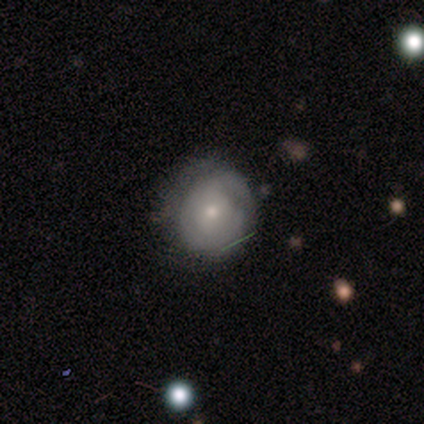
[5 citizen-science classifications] Morphology: type=smooth (60%); roundness=round (100%); merging=none (80%).